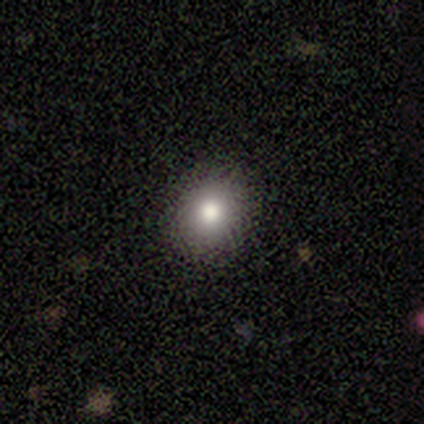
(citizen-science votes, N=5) Volunteers were most divided on "how rounded": round: 67%, in between: 33%, cigar-shaped: 0%. More confident: merging — none (100%); smooth or featured — smooth (60%).